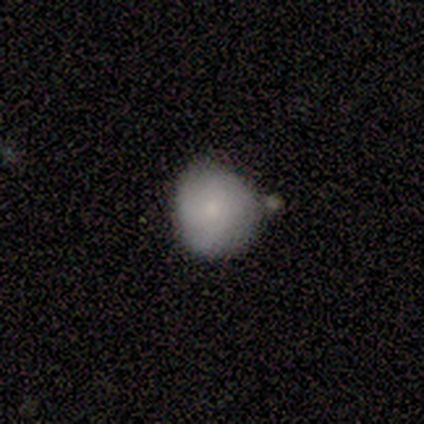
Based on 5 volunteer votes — Smooth or featured? smooth (100%)
How rounded? round (100%)
Merging? none (40%, tied with merger)